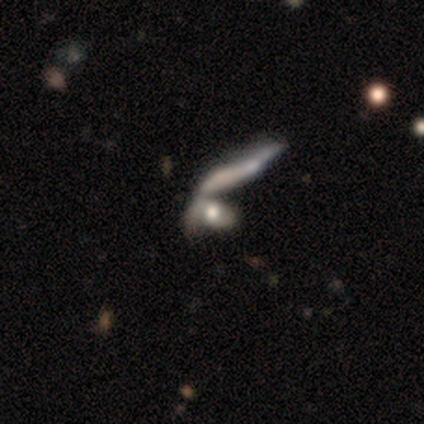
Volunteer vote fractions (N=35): Overall: featured or disk (49%; smooth 43%). Edge-on disk: no (82%). Bar: no (93%). Spiral arms: yes (57%; no 43%). Spiral arm count: 1 (50%; 2 38%). Spiral winding: medium (38%, tied with loose). Bulge size: moderate (43%; large 36%). Merging: merger (78%).